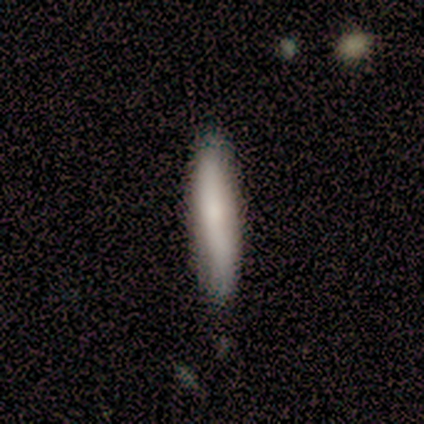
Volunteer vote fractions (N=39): smooth-or-featured: smooth: 69% | featured or disk: 26% | star or artifact: 5%
  how-rounded: cigar-shaped: 93% | in between: 7% | round: 0%
  merging: none: 78% | minor disturbance: 16% | major disturbance: 5% | merger: 0%